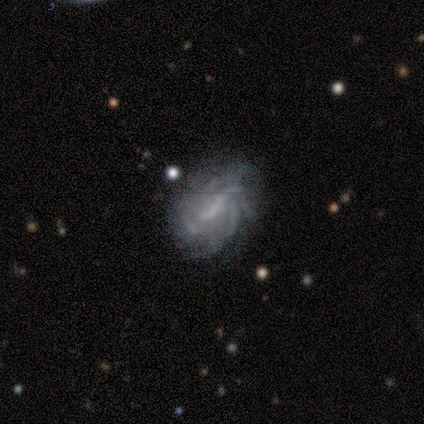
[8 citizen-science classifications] This appears to be a featured or disk galaxy (88%) with a weak bar (71%), medium (75%) spiral arms (57%) and no central bulge (57%). Merging: none (75%).